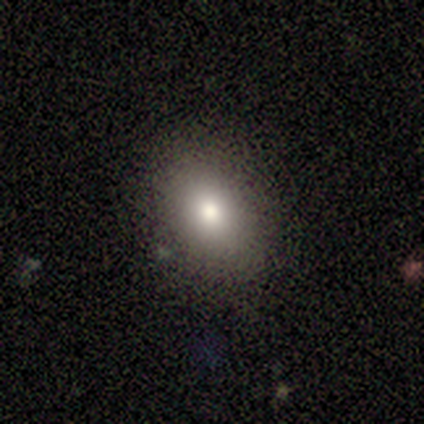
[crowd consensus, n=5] This appears to be a smooth galaxy with no disk features (80%) that is in between round and cigar-shaped (75%). Merging: none (40%, tied with minor disturbance).